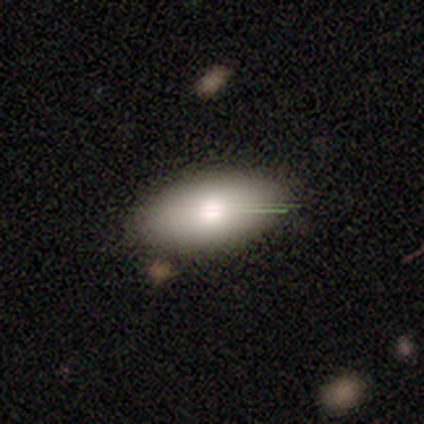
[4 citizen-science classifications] Smooth or featured: featured or disk — 75% (smooth — 25%)
Edge-on disk: no — 67% (yes — 33%)
Bar: no — 100%
Spiral arms: no — 100%
Bulge size: large — 50% (tied with moderate — 50%)
Merging: none — 75% (merger — 25%)